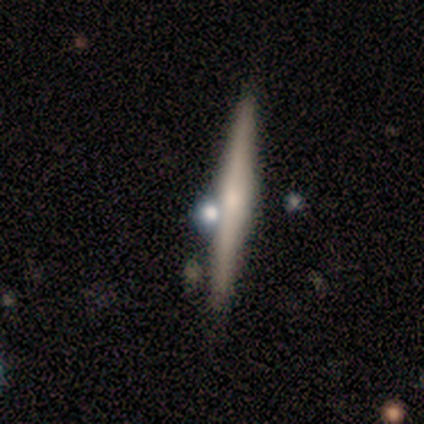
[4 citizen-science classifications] Smooth or featured: featured or disk — 100%
Edge-on disk: yes — 100%
Edge-on bulge: rounded — 75% (none — 25%)
Merging: none — 75% (major disturbance — 25%)